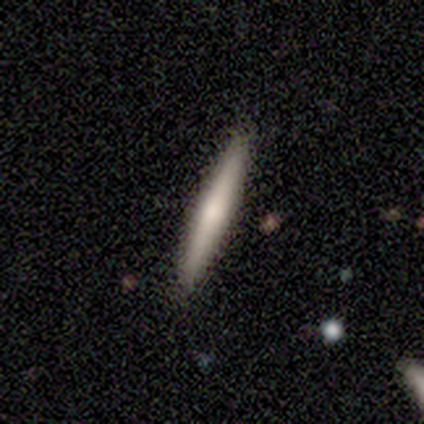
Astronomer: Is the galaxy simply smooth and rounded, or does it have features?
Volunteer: smooth — 50%, tied with featured or disk at 50%.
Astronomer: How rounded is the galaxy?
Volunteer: cigar-shaped — 100%.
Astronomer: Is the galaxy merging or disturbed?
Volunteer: none — 75%.